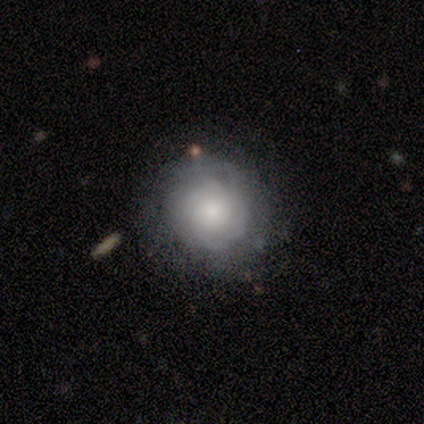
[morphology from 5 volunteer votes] smooth-or-featured: smooth: 80% | featured or disk: 20% | star or artifact: 0%
  how-rounded: round: 100% | in between: 0% | cigar-shaped: 0%
  merging: none: 80% | minor disturbance: 20% | major disturbance: 0% | merger: 0%